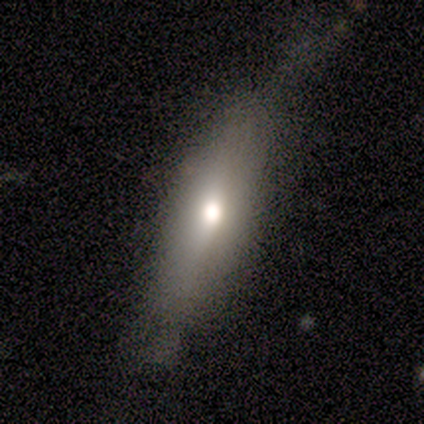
smooth_or_featured: smooth (p=0.69) [alt: featured or disk p=0.23]
how_rounded: cigar-shaped (p=0.63) [alt: in between p=0.37]
merging: none (p=0.64) [alt: minor disturbance p=0.33]